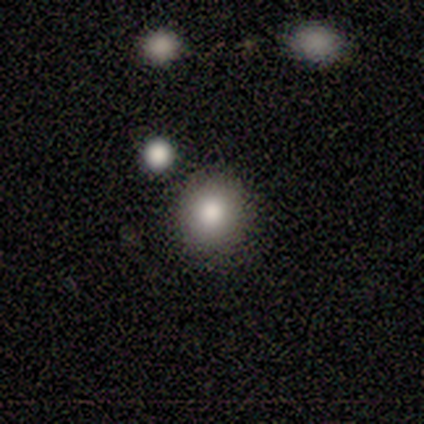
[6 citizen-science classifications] A smooth galaxy with no disk features (83%) that is round (60%). Merging: none (80%).